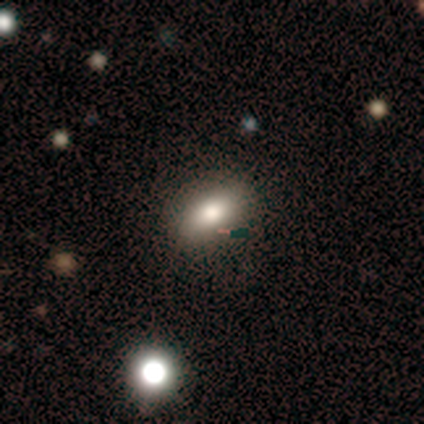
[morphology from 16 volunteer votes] This is clearly a smooth galaxy (88%). How rounded: clearly in between (86%). Merging: clearly none (100%).